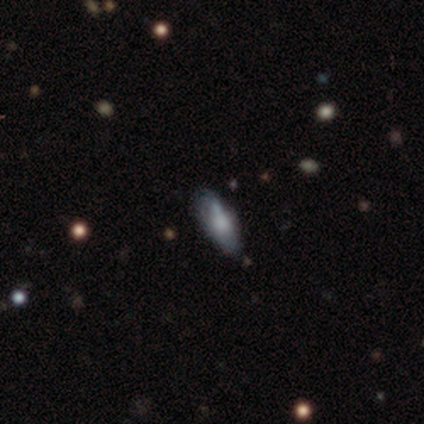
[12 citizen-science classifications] Q: Smooth or featured?
A: smooth (58%); runner-up: featured or disk (42%)
Q: How rounded?
A: in between (71%); runner-up: cigar-shaped (29%)
Q: Merging?
A: none (83%); runner-up: minor disturbance (17%)